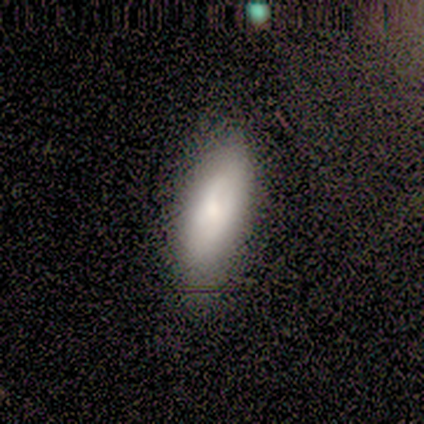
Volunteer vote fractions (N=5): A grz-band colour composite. It shows a smooth galaxy with no disk features (80%) that is in between round and cigar-shaped (75%). Merging: none (60%).